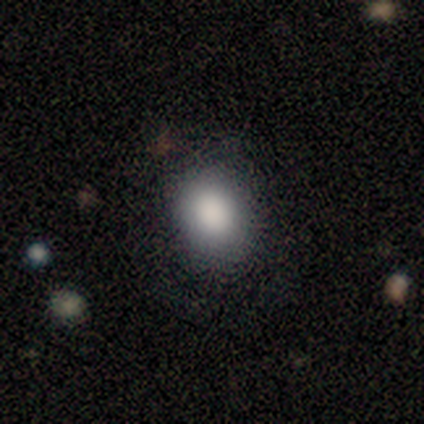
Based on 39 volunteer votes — This appears to be a smooth galaxy with no disk features (92%) that is in between round and cigar-shaped (64%). Merging: none (82%).